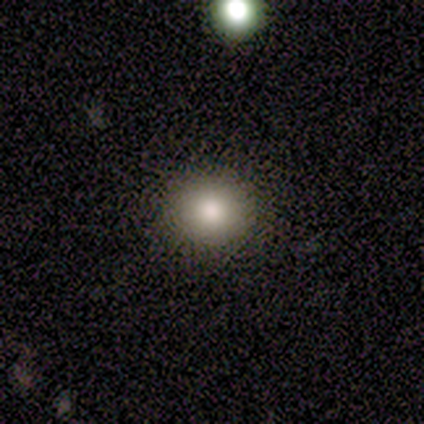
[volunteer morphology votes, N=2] smooth_or_featured: smooth (p=1.00)
how_rounded: round (p=1.00)
merging: none (p=1.00)